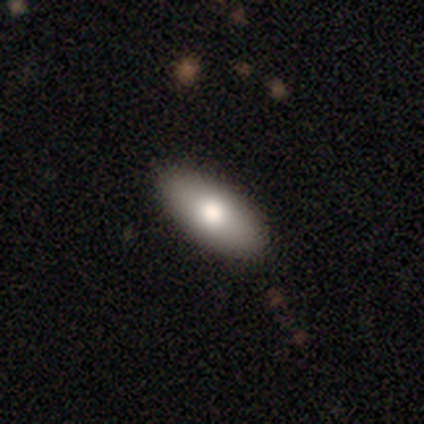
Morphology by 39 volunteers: Q: Smooth or featured?
A: smooth (67%); runner-up: featured or disk (28%)
Q: How rounded?
A: in between (77%); runner-up: cigar-shaped (23%)
Q: Merging?
A: none (81%); runner-up: minor disturbance (14%)